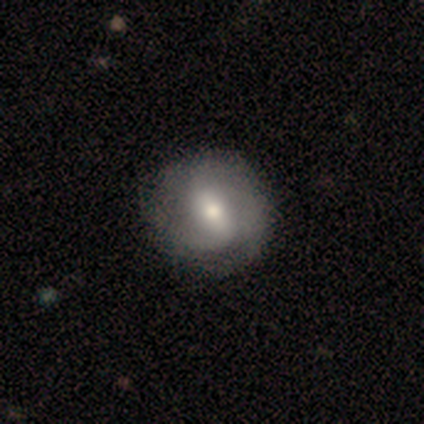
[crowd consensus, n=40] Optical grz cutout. It shows a featured or disk galaxy (62%) with a weak bar (56%), 2 (55%) medium (50%) spiral arms (88%) and a moderate central bulge (72%). Merging: none (52%).